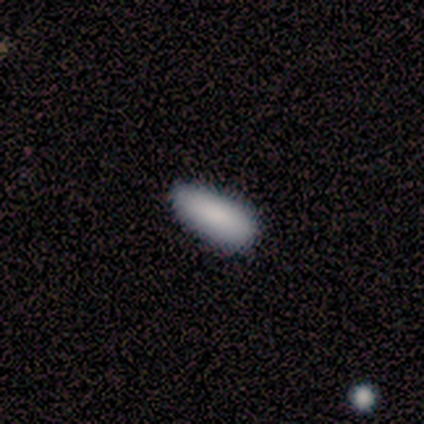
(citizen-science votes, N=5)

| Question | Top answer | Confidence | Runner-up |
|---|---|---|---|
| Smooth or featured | smooth | 100% | — |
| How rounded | in between | 100% | — |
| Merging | none | 100% | — |